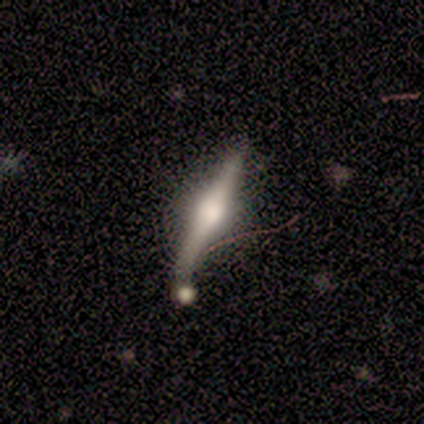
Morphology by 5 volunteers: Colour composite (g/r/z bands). It shows a featured or disk galaxy (60%) viewed edge-on (100%) with a rounded central bulge (100%). Merging: none (100%).